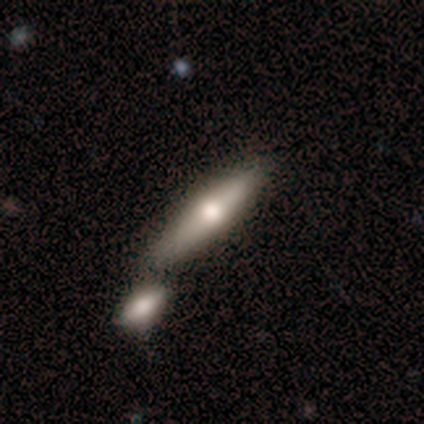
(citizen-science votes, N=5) smooth-or-featured: featured or disk: 40% (tied) | star or artifact: 40% (tied) | smooth: 20%
  disk-edge-on: yes: 100% | no: 0%
    edge-on-bulge: rounded: 100% | boxy: 0% | none: 0%
  merging: none: 67% | merger: 33% | minor disturbance: 0% | major disturbance: 0%